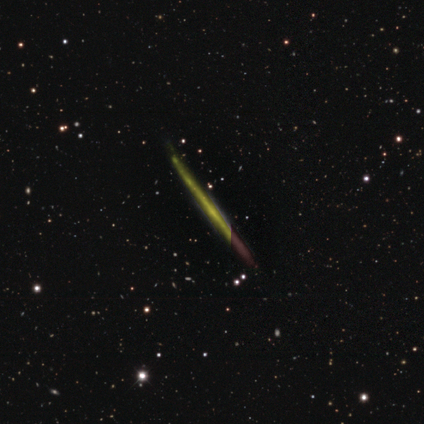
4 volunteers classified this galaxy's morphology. type=featured or disk (75%); edge-on=yes (100%); edge-on bulge=none (67%); merging=none (100%).